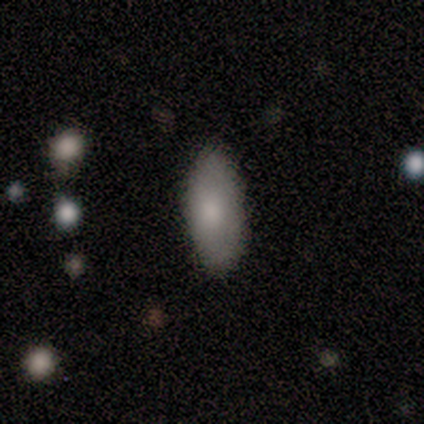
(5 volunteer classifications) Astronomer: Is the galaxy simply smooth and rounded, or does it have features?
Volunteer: smooth — 80%.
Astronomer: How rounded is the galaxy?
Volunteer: in between — 100%.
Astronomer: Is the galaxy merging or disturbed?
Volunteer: none — 75%.